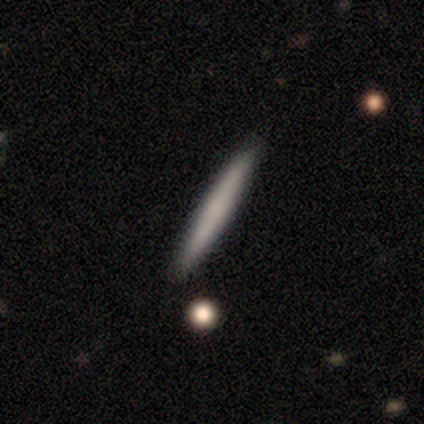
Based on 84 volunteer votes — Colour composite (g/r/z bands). It shows a smooth galaxy with no disk features (81%) that is cigar-shaped (100%). Merging: none (90%).